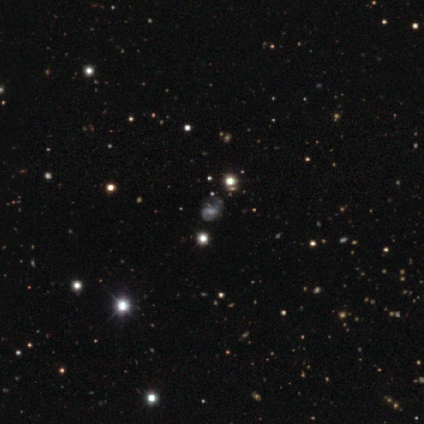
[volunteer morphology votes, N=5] Q: Smooth or featured?
A: star or artifact (60%); runner-up: smooth (40%)